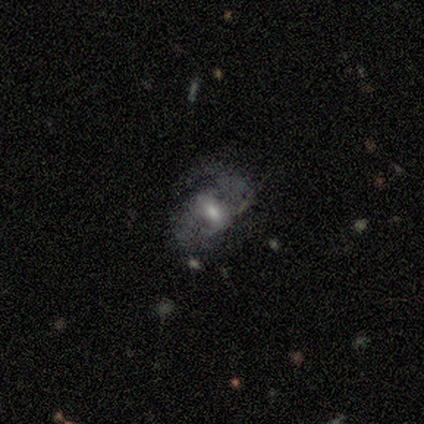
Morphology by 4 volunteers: A featured or disk galaxy (75%) with no bar (67%), 2 (100%) medium (67%) spiral arms (100%) and a moderate central bulge (67%).

Vote fractions:
- Smooth or featured? featured or disk: 75% / smooth: 25% / star or artifact: 0%
- Edge-on disk? no: 100% / yes: 0%
- Bar? no: 67% / strong: 33% / weak: 0%
- Spiral arms? yes: 100% / no: 0%
- Spiral winding? medium: 67% / loose: 33% / tight: 0%
- Spiral arm count? 2: 100% / 1: 0% / 3: 0% / 4: 0% / more than 4: 0% / can't tell: 0%
- Bulge size? moderate: 67% / small: 33% / dominant: 0% / large: 0% / none: 0%
- Merging? none: 50% / minor disturbance: 25% / major disturbance: 25% / merger: 0%